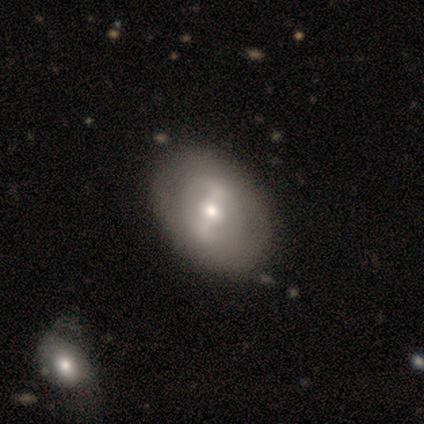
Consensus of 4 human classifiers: Volunteers were most divided on "bar": strong: 67%, weak: 33%, no: 0%. More confident: edge-on disk — no (100%); merging — none (100%); smooth or featured — featured or disk (75%); spiral arms — no (67%); bulge size — moderate (67%).